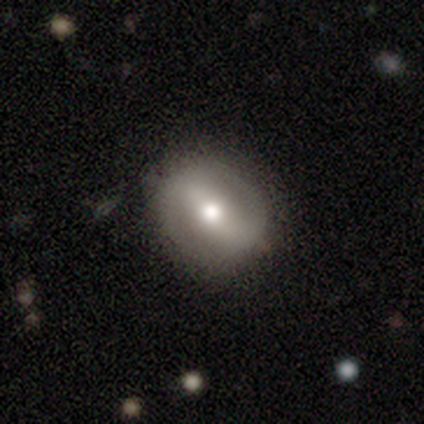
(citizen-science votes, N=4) Morphology: type=featured or disk (75%); edge-on=no (100%); bar=strong (33%, tied with weak and no); spiral arms=no (67%); bulge=moderate (67%); merging=none (100%).